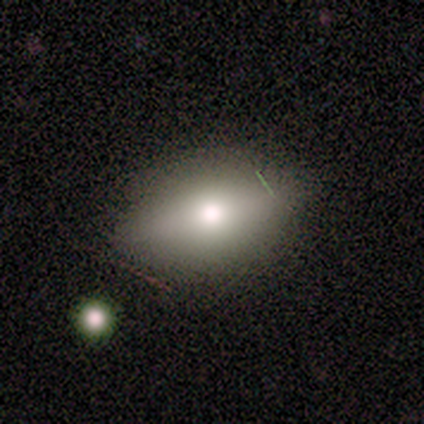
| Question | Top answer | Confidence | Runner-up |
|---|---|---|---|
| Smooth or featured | smooth | 50% | featured or disk (30%) |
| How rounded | in between | 100% | — |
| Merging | none | 62% | minor disturbance (38%) |